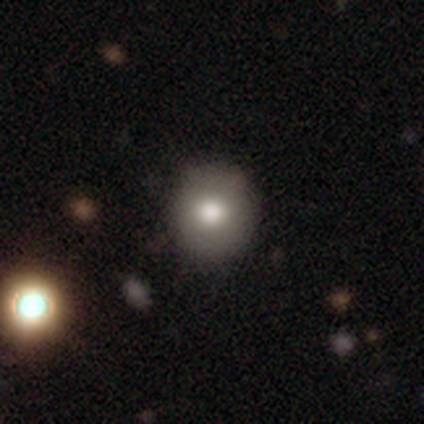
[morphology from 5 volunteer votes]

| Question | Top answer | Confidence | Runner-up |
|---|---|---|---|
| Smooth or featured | smooth | 80% | featured or disk (20%) |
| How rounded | round | 75% | in between (25%) |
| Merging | none | 80% | major disturbance (20%) |